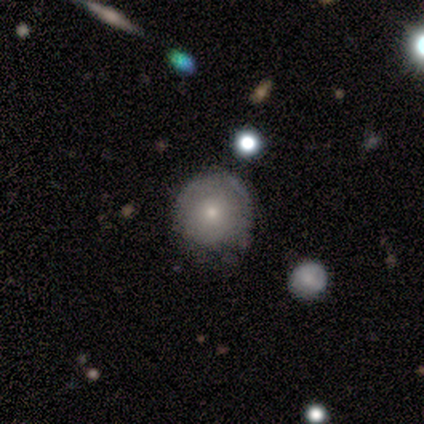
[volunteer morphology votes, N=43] Smooth or featured? smooth (58%)
How rounded? round (92%)
Merging? none (78%)